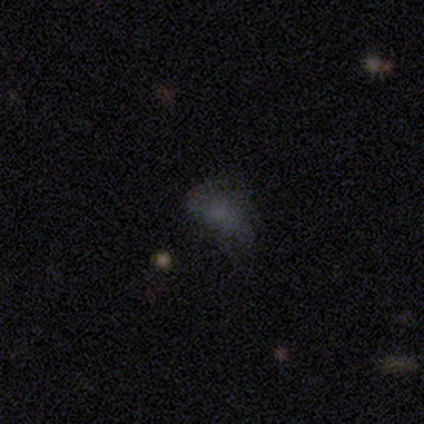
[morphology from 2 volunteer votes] smooth-or-featured: smooth: 50% (tied) | star or artifact: 50% (tied) | featured or disk: 0%
  how-rounded: round: 100% | in between: 0% | cigar-shaped: 0%
  merging: major disturbance: 100% | none: 0% | minor disturbance: 0% | merger: 0%